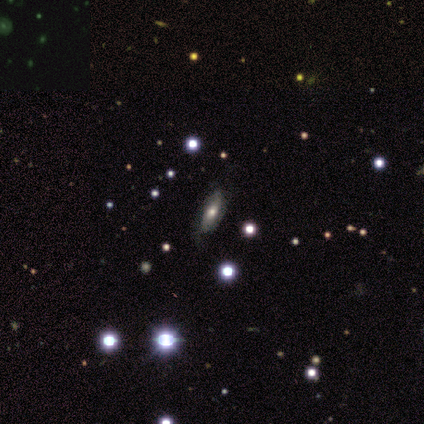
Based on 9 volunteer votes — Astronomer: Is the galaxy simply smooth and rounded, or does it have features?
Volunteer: featured or disk — 44% (runner-up: star or artifact, 33%).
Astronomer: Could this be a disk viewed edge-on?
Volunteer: no — 100%.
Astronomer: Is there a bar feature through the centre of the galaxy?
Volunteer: no — 75%.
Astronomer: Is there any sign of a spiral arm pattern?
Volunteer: yes — 75%.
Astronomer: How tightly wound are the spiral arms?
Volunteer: tight — 67%.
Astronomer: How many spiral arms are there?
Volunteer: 2 — 33%, tied with 3 and can't tell at 33%.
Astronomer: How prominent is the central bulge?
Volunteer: moderate — 100%.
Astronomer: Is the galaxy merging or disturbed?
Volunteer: none — 67%.